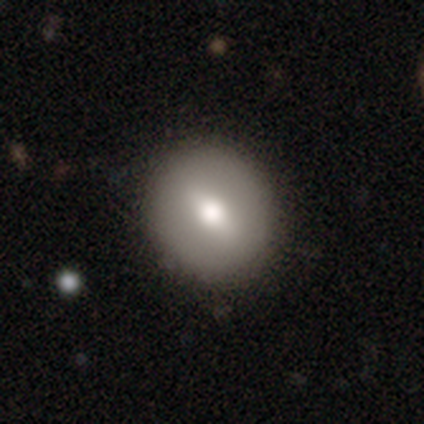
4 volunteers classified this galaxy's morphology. A smooth galaxy with no disk features (100%) that is round (100%). Merging: none (100%).